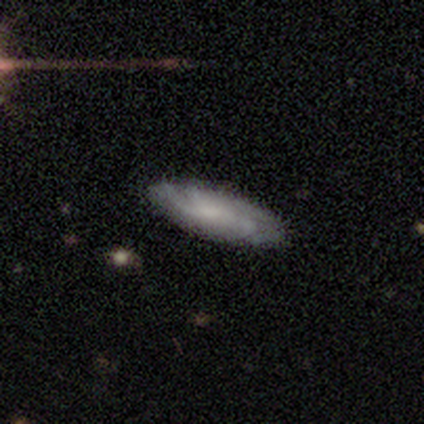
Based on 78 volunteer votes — A featured or disk galaxy (65%) with no bar (69%), medium (45%) spiral arms (89%) and no central bulge (54%). Merging: none (39%).